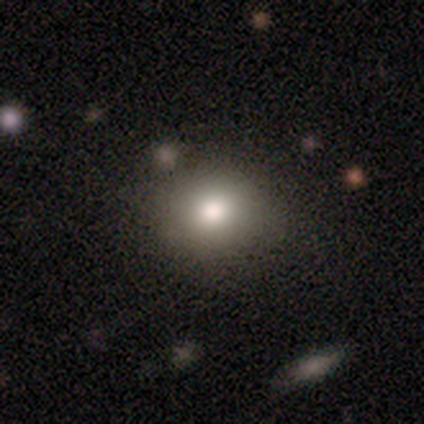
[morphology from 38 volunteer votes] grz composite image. It shows a smooth galaxy with no disk features (79%) that is round (80%). Merging: none (91%).